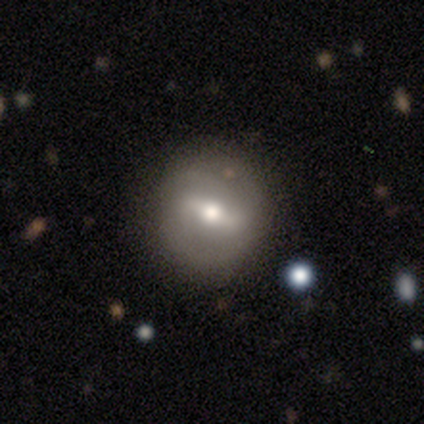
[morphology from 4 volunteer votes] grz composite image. It shows a featured or disk galaxy (100%) with a strong bar (100%), 2 (100%) tight (50%, tied with medium) spiral arms (50%, tied with no) and a moderate central bulge (75%). Merging: none (100%).